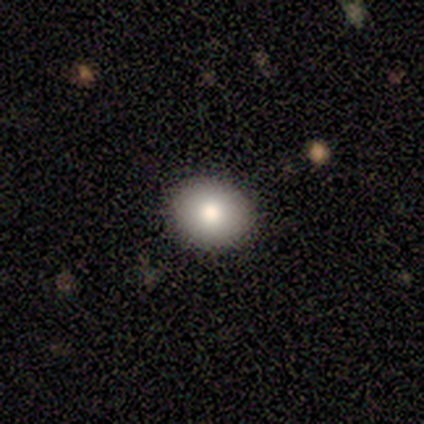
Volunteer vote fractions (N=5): Q: Smooth or featured?
A: smooth (80%); runner-up: featured or disk (20%)
Q: How rounded?
A: round (75%); runner-up: in between (25%)
Q: Merging?
A: none (100%)